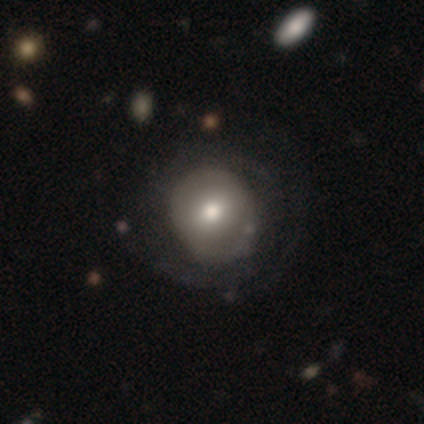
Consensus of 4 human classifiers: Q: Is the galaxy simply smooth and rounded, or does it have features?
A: smooth — 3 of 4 (75%).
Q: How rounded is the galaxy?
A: round — 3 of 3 (100%).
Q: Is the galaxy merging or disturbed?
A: none — 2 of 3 (67%).